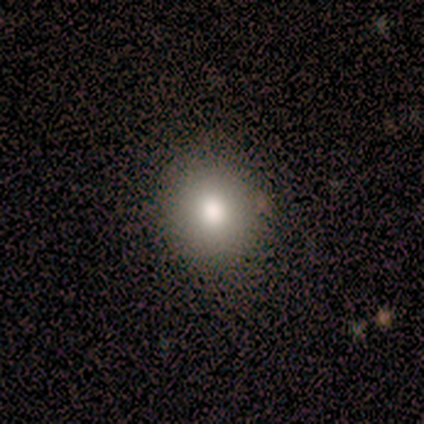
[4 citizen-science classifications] This is likely a smooth galaxy (75%). How rounded: likely round (67%). Merging: possibly none (50%, tied with minor disturbance).